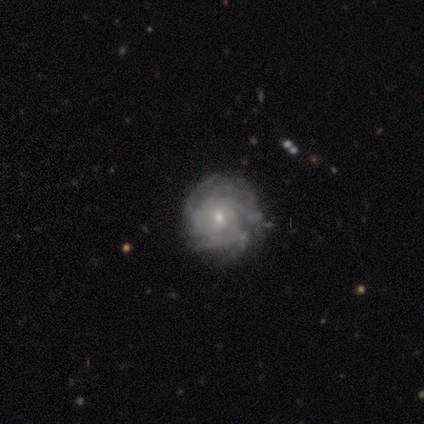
Q: Smooth or featured?
A: featured or disk (75%); runner-up: star or artifact (25%)
Q: Edge-on disk?
A: no (67%); runner-up: yes (33%)
Q: Bar?
A: no (100%)
Q: Spiral arms?
A: yes (100%)
Q: Spiral winding?
A: tight (100%)
Q: Spiral arm count?
A: more than 4 (50%); tied with: can't tell (50%)
Q: Bulge size?
A: small (100%)
Q: Merging?
A: none (67%); runner-up: minor disturbance (33%)